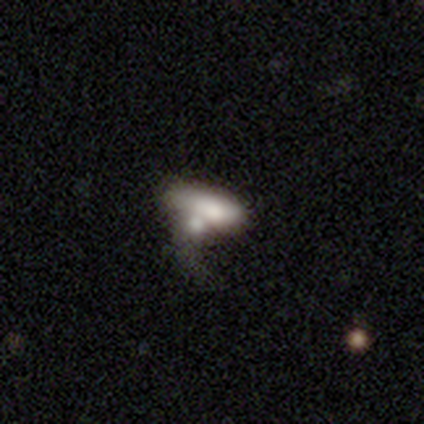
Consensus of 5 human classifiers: Volunteers were most divided on "smooth or featured": smooth: 60%, featured or disk: 40%, star or artifact: 0%. More confident: how rounded — in between (67%); merging — minor disturbance (60%).